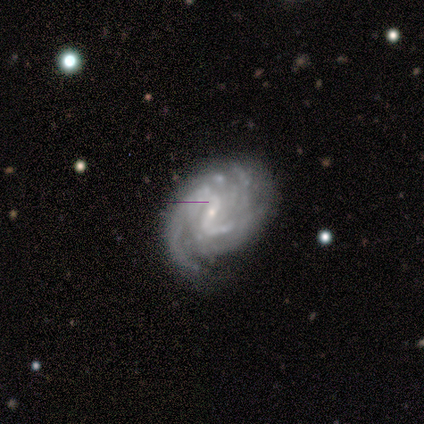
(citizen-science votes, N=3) This is clearly a featured or disk galaxy (100%). It is clearly not viewed edge-on (100%). Bar: likely weak (67%). Spiral arm pattern: likely yes (67%). Spiral arm count: possibly 2 (50%, tied with can't tell). Spiral winding: clearly medium (100%). Central bulge: likely small (67%). Merging: likely none (67%).